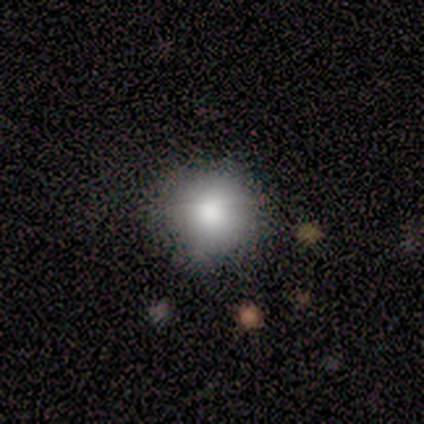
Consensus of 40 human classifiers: Smooth or featured? 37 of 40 (92%) said smooth. How rounded? 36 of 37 (97%) said round. Merging? 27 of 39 (69%) said none.